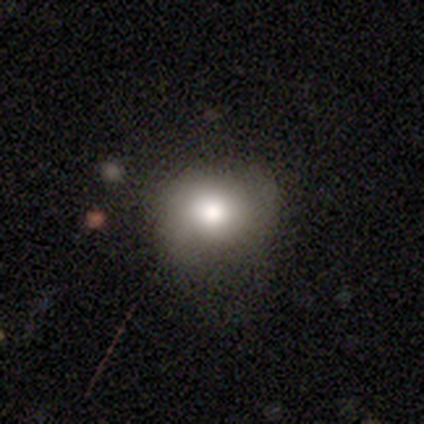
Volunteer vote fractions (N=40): Overall: smooth (57%; featured or disk 30%). How rounded: round (65%; in between 35%). Merging: none (57%; minor disturbance 23%).